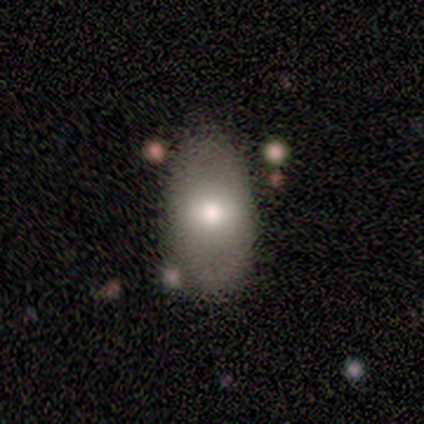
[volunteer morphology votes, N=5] This appears to be a smooth galaxy with no disk features (40%, tied with featured or disk) that is in between round and cigar-shaped (100%). Merging: none (75%).